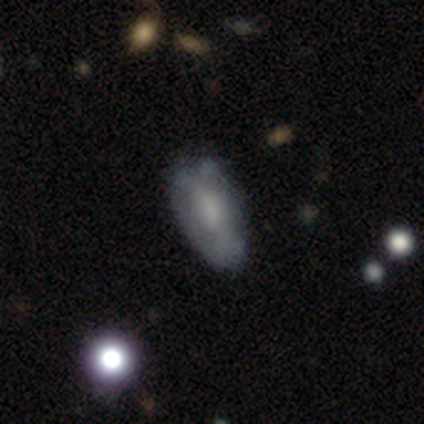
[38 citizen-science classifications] smooth_or_featured: smooth (p=0.55) [alt: featured or disk p=0.39]
how_rounded: in between (p=1.00)
merging: none (p=0.50) [alt: minor disturbance p=0.42]